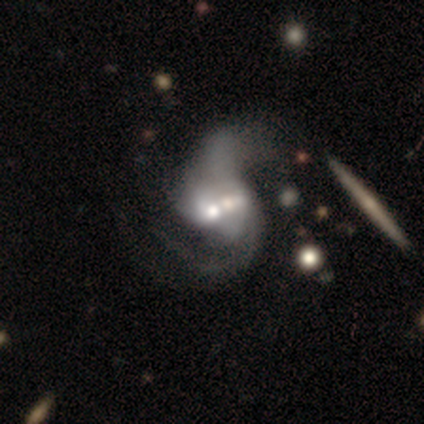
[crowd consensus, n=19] smooth_or_featured: featured or disk (p=0.84) [alt: smooth p=0.11]
disk_edge_on: no (p=1.00)
bar: weak (p=0.56) [alt: no p=0.31]
has_spiral_arms: yes (p=0.88) [alt: no p=0.12]
spiral_winding: loose (p=0.57) [alt: medium p=0.43]
spiral_arm_count: 2 (p=0.86) [alt: can't tell p=0.14]
bulge_size: moderate (p=0.69) [alt: large p=0.12]
merging: merger (p=0.67) [alt: none p=0.22]